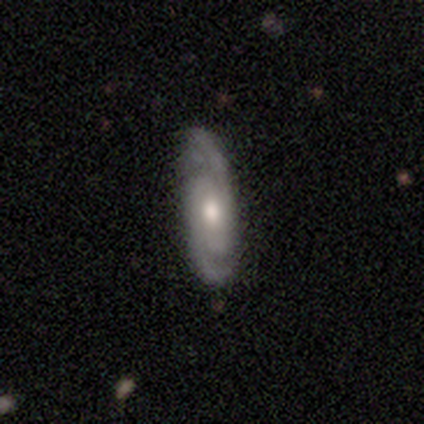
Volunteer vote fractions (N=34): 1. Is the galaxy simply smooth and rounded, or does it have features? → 85% featured or disk, 12% smooth, 3% star or artifact.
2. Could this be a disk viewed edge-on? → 86% no, 14% yes.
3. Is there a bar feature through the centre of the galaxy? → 84% no, 12% weak, 4% strong.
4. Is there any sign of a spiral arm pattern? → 92% yes, 8% no.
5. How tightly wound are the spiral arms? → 48% tight, 43% medium, 9% loose.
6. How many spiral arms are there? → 83% 2, 9% can't tell, 4% 1, 4% 4, 0% 3, 0% more than 4.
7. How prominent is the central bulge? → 64% moderate, 16% large, 16% small, 4% none, 0% dominant.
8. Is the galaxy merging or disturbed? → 85% none, 15% minor disturbance, 0% major disturbance, 0% merger.